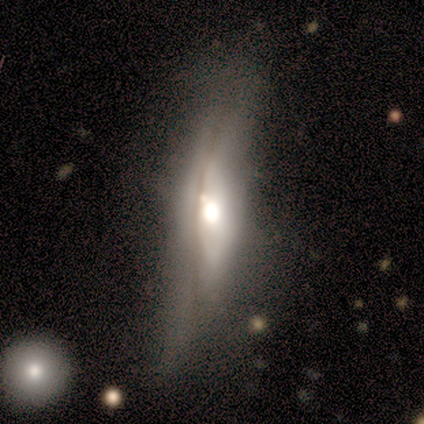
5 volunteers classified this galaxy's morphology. Overall: featured or disk (80%). Edge-on disk: yes (50%, tied with no). Edge-on bulge: none (50%, tied with rounded). Merging: minor disturbance (40%, tied with major disturbance).